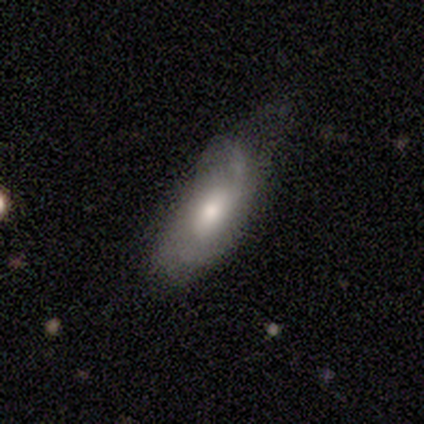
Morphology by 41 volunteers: Smooth or featured?
  - smooth: 49% * (tied)
  - featured or disk: 49% * (tied)
  - star or artifact: 2%
How rounded?
  - in between: 95% *
  - cigar-shaped: 5%
  - round: 0%
Merging?
  - minor disturbance: 30% *
  - none: 22%
  - major disturbance: 18%
  - merger: 0%